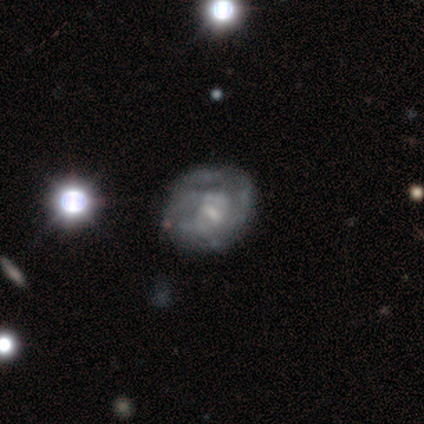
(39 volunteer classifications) smooth_or_featured: featured or disk (p=0.69) [alt: smooth p=0.21]
disk_edge_on: no (p=1.00)
bar: no (p=0.48) [alt: weak p=0.37]
has_spiral_arms: no (p=0.52) [alt: yes p=0.48]
bulge_size: small (p=0.56) [alt: moderate p=0.19]
merging: none (p=0.57) [alt: minor disturbance p=0.20]